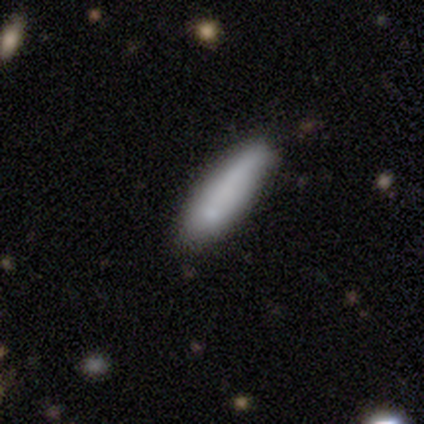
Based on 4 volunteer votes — smooth 75%, star or artifact 25%, featured or disk 0%. Down the decision tree: how rounded — in between (67%); merging — none (67%).